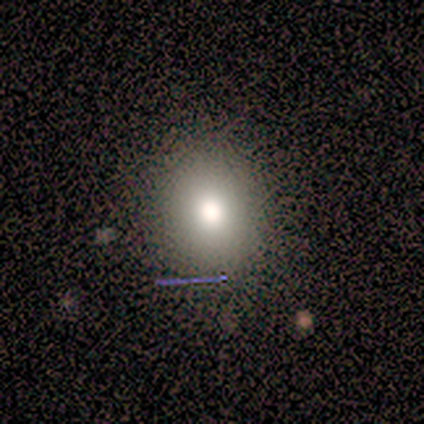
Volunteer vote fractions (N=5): Volunteers were most divided on "smooth or featured": smooth: 60%, star or artifact: 40%, featured or disk: 0%. More confident: how rounded — round (100%); merging — none (100%).